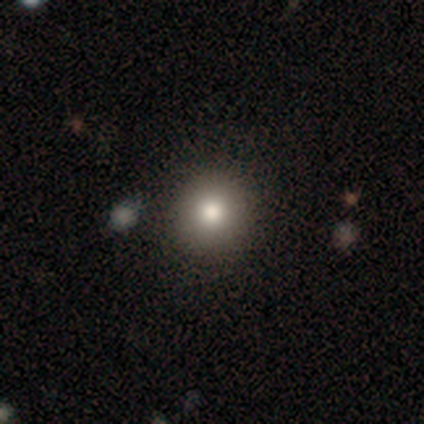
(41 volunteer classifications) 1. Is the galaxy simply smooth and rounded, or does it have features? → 80% smooth, 12% featured or disk, 7% star or artifact.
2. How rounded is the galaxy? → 97% round, 3% in between, 0% cigar-shaped.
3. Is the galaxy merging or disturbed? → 47% none, 5% major disturbance, 3% minor disturbance, 3% merger.